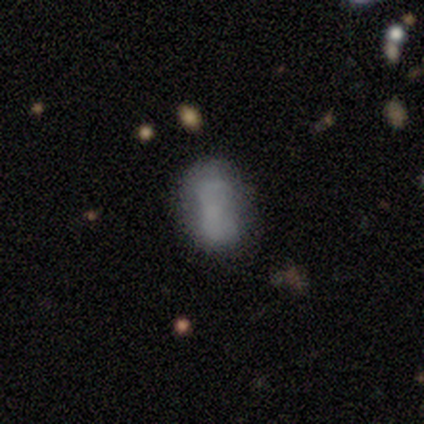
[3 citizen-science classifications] A smooth galaxy with no disk features (100%) that is in between round and cigar-shaped (67%).

Vote fractions:
- Smooth or featured? smooth: 100% / featured or disk: 0% / star or artifact: 0%
- How rounded? in between: 67% / round: 33% / cigar-shaped: 0%
- Merging? none: 67% / merger: 33% / minor disturbance: 0% / major disturbance: 0%